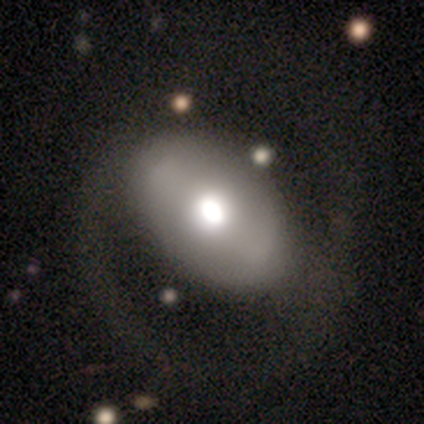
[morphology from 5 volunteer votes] This is likely a featured or disk galaxy (60%). It is clearly not viewed edge-on (100%). Bar: marginally strong (33%, tied with weak and no). Spiral arm pattern: likely no (67%). Central bulge: likely large (67%). Merging: clearly none (80%).